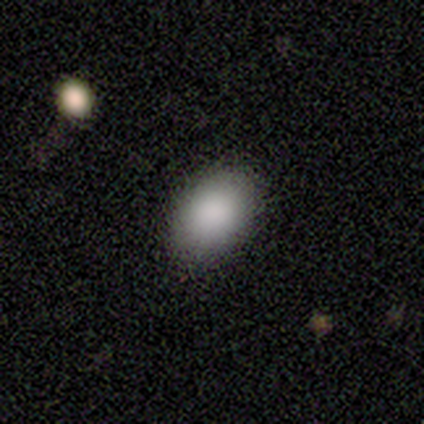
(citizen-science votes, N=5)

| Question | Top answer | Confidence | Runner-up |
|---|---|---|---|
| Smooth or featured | smooth | 60% | featured or disk (20%) |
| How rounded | in between | 100% | — |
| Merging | none | 100% | — |